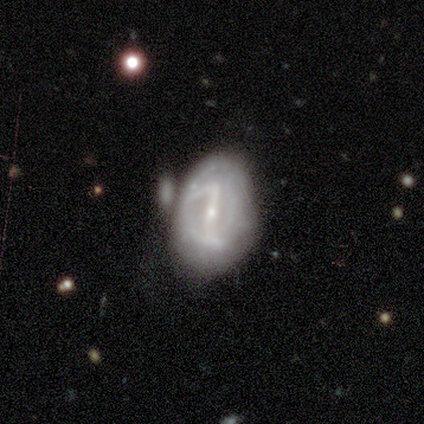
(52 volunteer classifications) A featured or disk galaxy (88%) with a strong bar (78%), 2 (74%) medium (51%) spiral arms (78%) and a small central bulge (80%).

Vote fractions:
- Smooth or featured? featured or disk: 88% / smooth: 10% / star or artifact: 2%
- Edge-on disk? no: 98% / yes: 2%
- Bar? strong: 78% / weak: 20% / no: 2%
- Spiral arms? yes: 78% / no: 22%
- Spiral winding? medium: 51% / tight: 29% / loose: 20%
- Spiral arm count? 2: 74% / can't tell: 17% / 3: 6% / 1: 3% / 4: 0% / more than 4: 0%
- Bulge size? small: 80% / moderate: 16% / dominant: 2% / none: 2% / large: 0%
- Merging? minor disturbance: 45% / none: 35% / merger: 14% / major disturbance: 6%